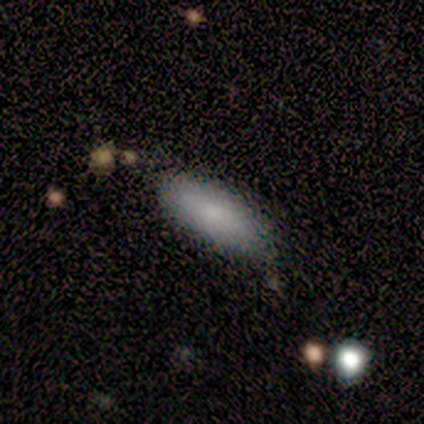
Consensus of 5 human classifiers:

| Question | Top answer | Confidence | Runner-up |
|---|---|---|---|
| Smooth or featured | smooth | 100% | — |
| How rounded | in between | 80% | cigar-shaped (20%) |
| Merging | none | 80% | minor disturbance (20%) |